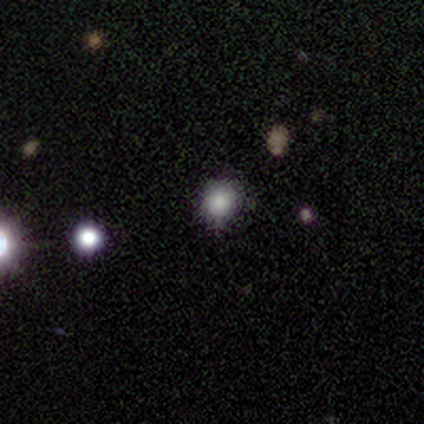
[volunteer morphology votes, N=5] Smooth or featured: smooth — 40% (tied with star or artifact — 40%)
How rounded: round — 100%
Merging: merger — 67% (none — 33%)